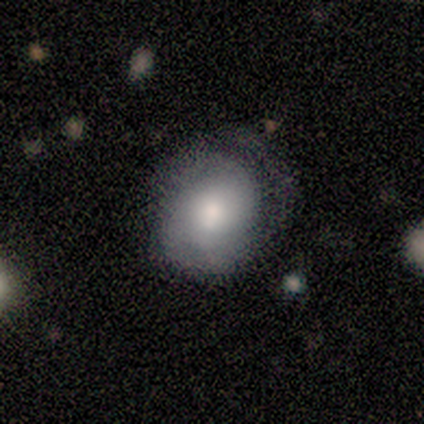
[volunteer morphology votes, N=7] This appears to be a featured or disk galaxy (71%) with a weak bar (60%), 1 (33%, tied with 2 and can't tell) tight (67%) spiral arms (60%) and a moderate central bulge (80%). Merging: major disturbance (43%).